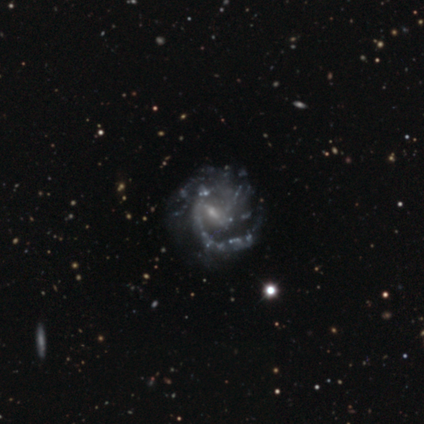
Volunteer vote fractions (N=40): smooth_or_featured: featured or disk (p=0.85) [alt: star or artifact p=0.12]
disk_edge_on: no (p=1.00)
bar: weak (p=0.59) [alt: no p=0.29]
has_spiral_arms: yes (p=0.91) [alt: no p=0.09]
spiral_winding: medium (p=0.65) [alt: tight p=0.23]
spiral_arm_count: 2 (p=0.29) [alt: can't tell p=0.23]
bulge_size: small (p=0.71) [alt: moderate p=0.18]
merging: none (p=0.46) [alt: major disturbance p=0.29]